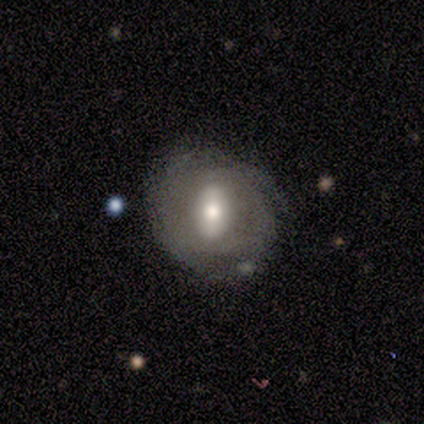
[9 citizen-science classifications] Overall: featured or disk (78%). Edge-on disk: no (100%). Bar: weak (43%; strong 29%). Spiral arms: yes (71%). Spiral arm count: 3 (80%). Spiral winding: tight (40%, tied with medium). Bulge size: moderate (86%). Merging: none (67%; minor disturbance 33%).